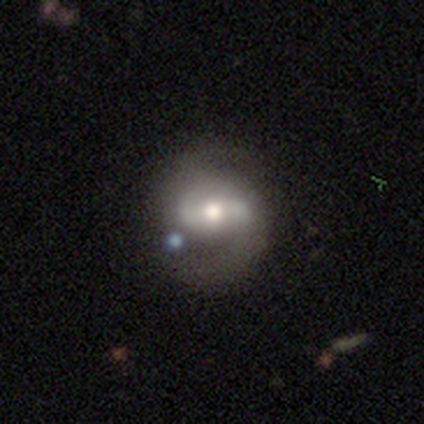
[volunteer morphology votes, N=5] A featured or disk galaxy (100%) with a weak bar (40%, tied with no), 2 (80%) medium (60%) spiral arms (100%) and a moderate central bulge (100%). Merging: none (100%).